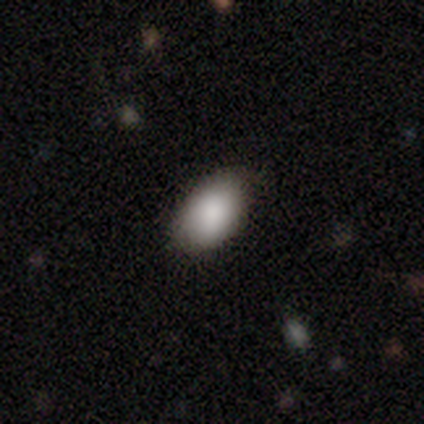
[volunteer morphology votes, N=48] Q: Smooth or featured?
A: smooth (85%); runner-up: star or artifact (8%)
Q: How rounded?
A: in between (88%); runner-up: round (12%)
Q: Merging?
A: none (80%); runner-up: minor disturbance (14%)